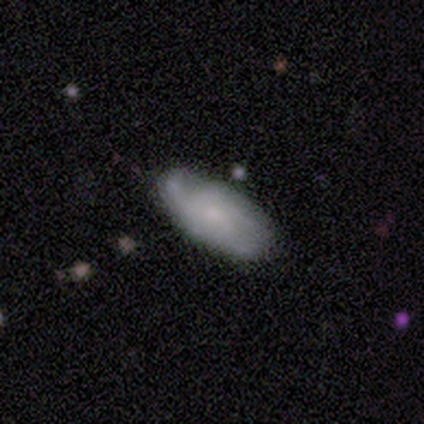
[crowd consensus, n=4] Morphology: type=smooth (75%); roundness=in between (67%); merging=none (100%).